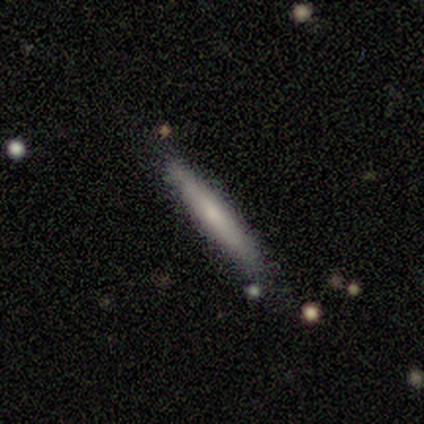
smooth 71%, featured or disk 24%, star or artifact 5%. Down the decision tree: how rounded — cigar-shaped (100%); merging — none (89%).